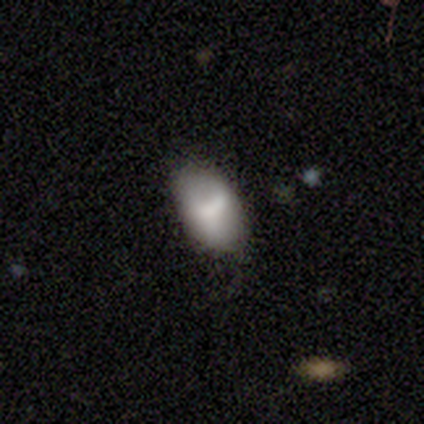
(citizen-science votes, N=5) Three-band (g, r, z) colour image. It shows a smooth galaxy with no disk features (80%) that is in between round and cigar-shaped (100%). Merging: none (80%).